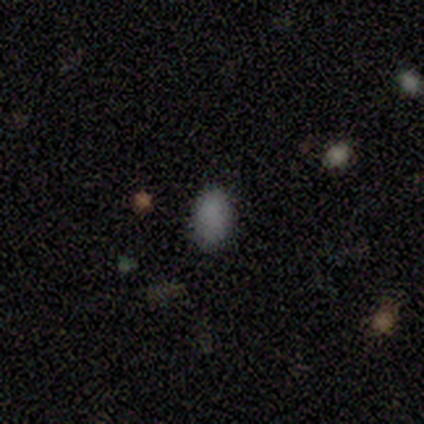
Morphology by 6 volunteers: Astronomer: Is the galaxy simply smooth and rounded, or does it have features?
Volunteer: smooth — 83%.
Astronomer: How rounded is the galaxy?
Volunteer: in between — 100%.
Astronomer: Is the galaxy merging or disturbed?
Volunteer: none — 100%.